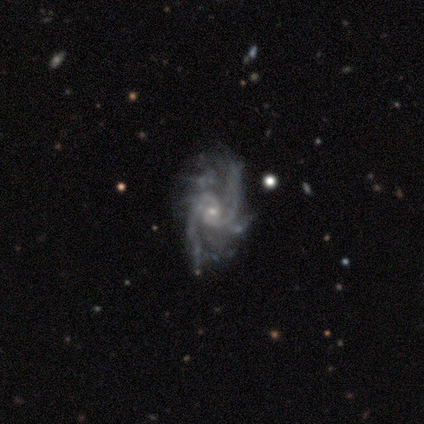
Morphology: type=featured or disk (100%); edge-on=no (100%); bar=no (80%); spiral arms=yes (100%); winding=medium (40%, tied with loose); arm count=2 (80%); bulge=small (80%); merging=none (80%).